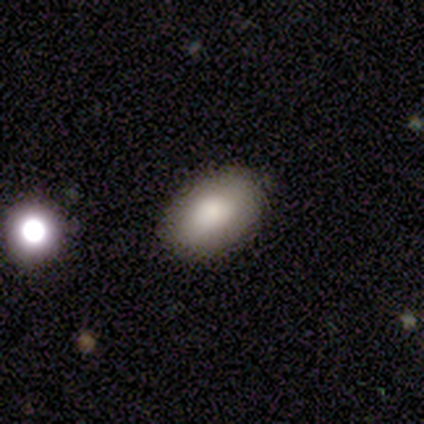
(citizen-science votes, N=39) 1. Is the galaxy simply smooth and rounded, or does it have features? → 85% smooth, 8% featured or disk, 8% star or artifact.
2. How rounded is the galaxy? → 88% in between, 12% round, 0% cigar-shaped.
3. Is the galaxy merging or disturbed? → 94% none, 3% minor disturbance, 3% merger, 0% major disturbance.